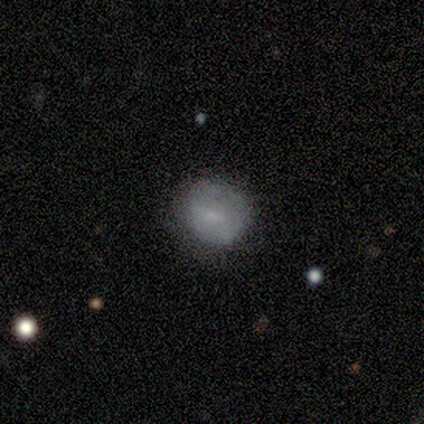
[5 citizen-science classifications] This is clearly a featured or disk galaxy (80%). It is clearly not viewed edge-on (100%). Bar: possibly weak (50%). Spiral arm pattern: likely yes (75%). Spiral arm count: likely can't tell (67%). Spiral winding: marginally tight (33%, tied with medium and loose). Central bulge: likely small (75%). Merging: likely none (60%).